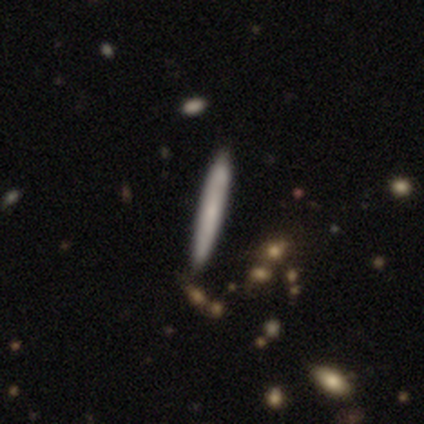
Q: Smooth or featured?
A: smooth (80%); runner-up: featured or disk (20%)
Q: How rounded?
A: cigar-shaped (100%)
Q: Merging?
A: none (60%); runner-up: merger (40%)